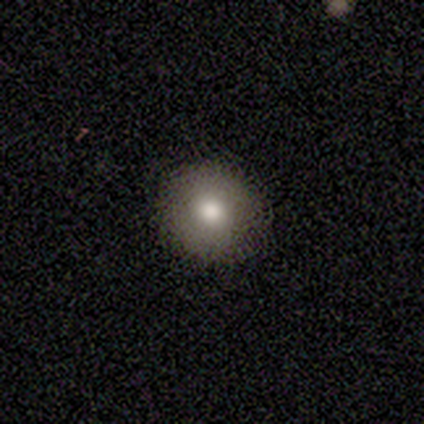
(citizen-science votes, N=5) smooth_or_featured: smooth (p=1.00)
how_rounded: round (p=0.80) [alt: in between p=0.20]
merging: none (p=0.80) [alt: minor disturbance p=0.20]